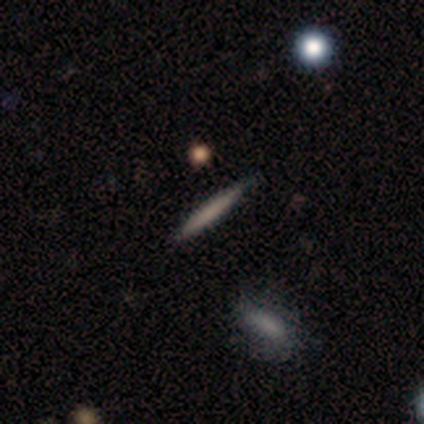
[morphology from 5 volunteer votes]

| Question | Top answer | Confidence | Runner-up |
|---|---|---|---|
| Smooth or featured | smooth | 80% | featured or disk (20%) |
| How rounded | cigar-shaped | 100% | — |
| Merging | none | 80% | minor disturbance (20%) |